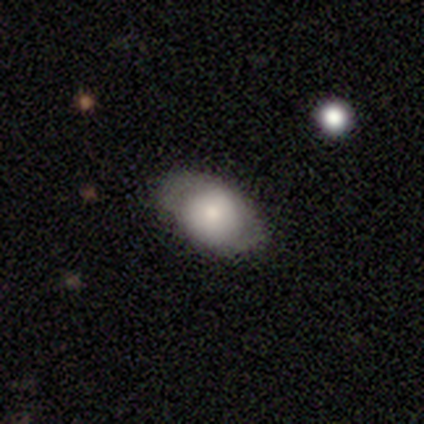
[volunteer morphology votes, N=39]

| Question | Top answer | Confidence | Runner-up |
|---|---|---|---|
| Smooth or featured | smooth | 64% | featured or disk (36%) |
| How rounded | in between | 68% | round (32%) |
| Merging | none | 77% | minor disturbance (18%) |